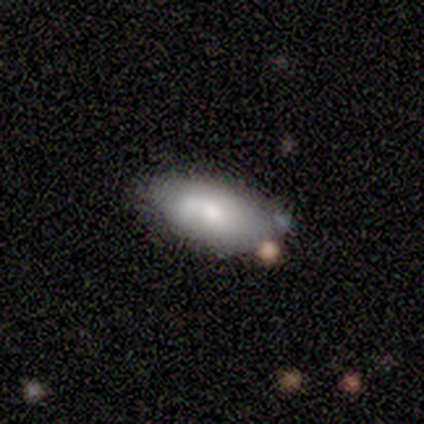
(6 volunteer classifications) Smooth or featured?
  - smooth: 67% *
  - featured or disk: 33%
  - star or artifact: 0%
How rounded?
  - in between: 100% *
  - round: 0%
  - cigar-shaped: 0%
Merging?
  - minor disturbance: 50% *
  - none: 33%
  - major disturbance: 17%
  - merger: 0%